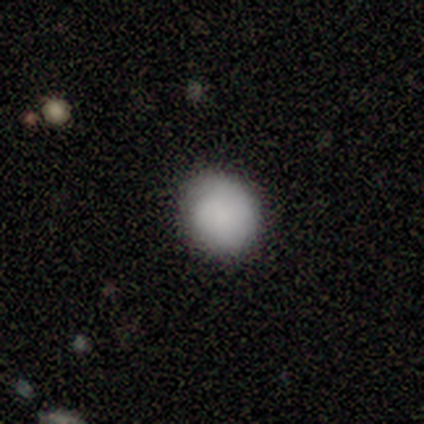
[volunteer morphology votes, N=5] smooth_or_featured: smooth (p=1.00)
how_rounded: round (p=0.80) [alt: in between p=0.20]
merging: none (p=0.80) [alt: minor disturbance p=0.20]